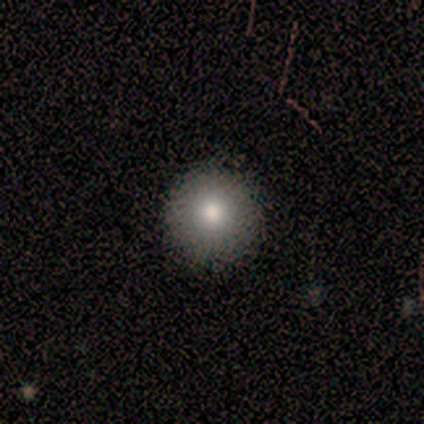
Overall: smooth (57%; featured or disk 29%). How rounded: round (100%). Merging: none (100%).